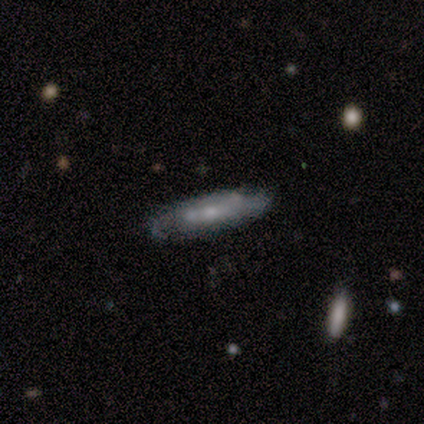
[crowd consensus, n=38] Overall: featured or disk (61%; smooth 32%). Edge-on disk: yes (52%; no 48%). Edge-on bulge: rounded (50%; none 42%). Merging: none (63%; minor disturbance 29%).